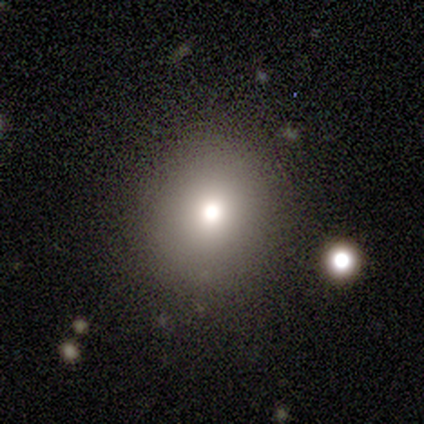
Smooth or featured? 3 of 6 (50%) said smooth. How rounded? 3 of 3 (100%) said round. Merging? 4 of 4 (100%) said none.